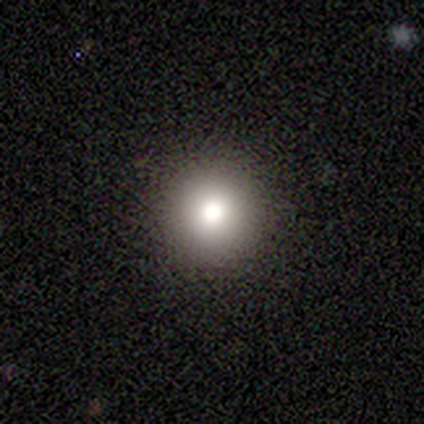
A smooth galaxy with no disk features (60%) that is round (100%). Merging: none (100%).